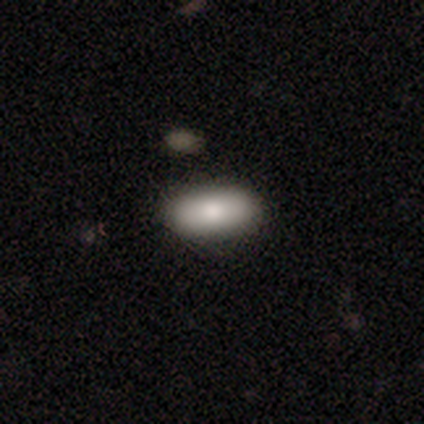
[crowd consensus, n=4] Smooth or featured: smooth — 100%
How rounded: in between — 75% (round — 25%)
Merging: none — 100%